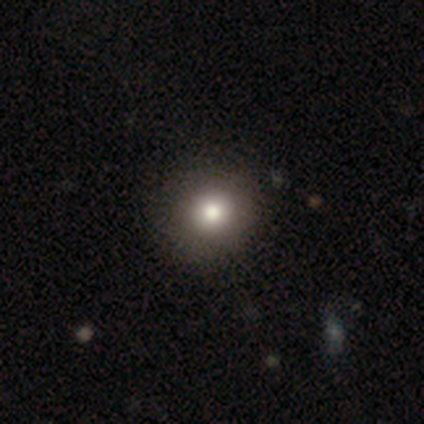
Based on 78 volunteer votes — This is likely a smooth galaxy (79%). How rounded: clearly round (95%). Merging: marginally none (43%).